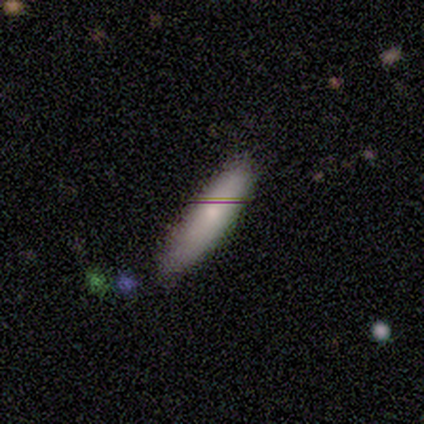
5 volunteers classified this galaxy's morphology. Overall: smooth (80%). How rounded: in between (50%, tied with cigar-shaped). Merging: none (60%; minor disturbance 20%).